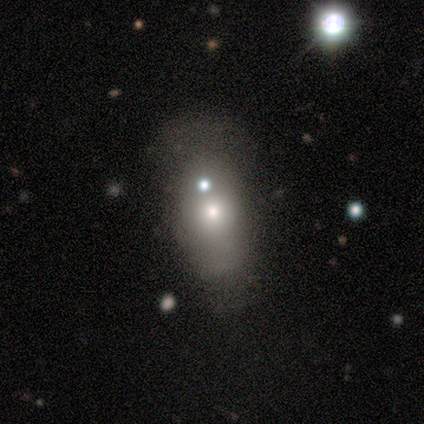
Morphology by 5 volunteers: A smooth galaxy with no disk features (40%, tied with star or artifact) that is in between round and cigar-shaped (100%).

Vote fractions:
- Smooth or featured? smooth: 40% (tied) / star or artifact: 40% (tied) / featured or disk: 20%
- How rounded? in between: 100% / round: 0% / cigar-shaped: 0%
- Merging? none: 67% / major disturbance: 33% / minor disturbance: 0% / merger: 0%